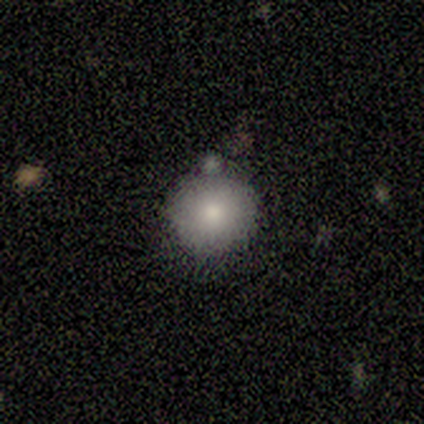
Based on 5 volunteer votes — Q: Smooth or featured?
A: smooth (100%)
Q: How rounded?
A: round (100%)
Q: Merging?
A: none (40%); tied with: merger (40%)